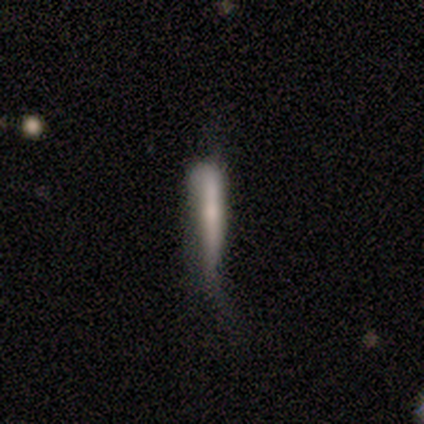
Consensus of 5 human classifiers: Morphology: type=featured or disk (40%, tied with star or artifact); edge-on=yes (100%); edge-on bulge=rounded (100%); merging=major disturbance (100%).